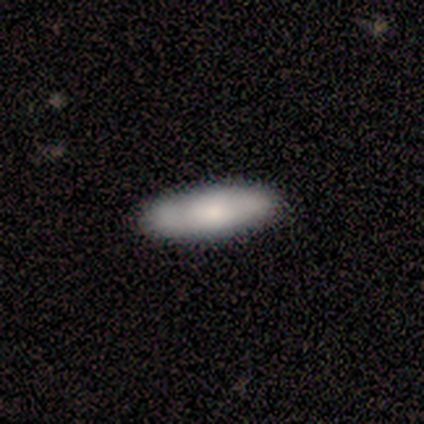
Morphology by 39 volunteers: type=smooth (64%); roundness=in between (68%); merging=none (91%).